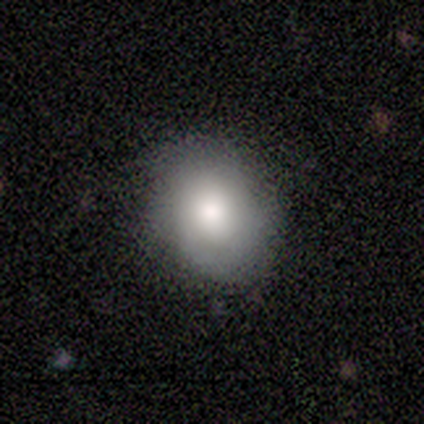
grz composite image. It shows a smooth galaxy with no disk features (40%, tied with featured or disk) that is in between round and cigar-shaped (100%). Merging: none (100%).